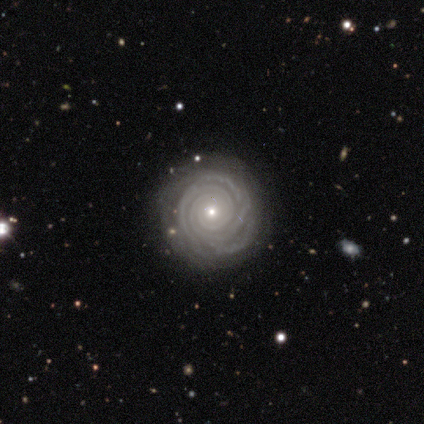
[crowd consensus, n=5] Smooth or featured? featured or disk (60%)
Edge-on disk? no (100%)
Bar? no (100%)
Spiral arms? yes (100%)
Spiral winding? tight (100%)
Spiral arm count? 3 (33%, tied with 4 and can't tell)
Bulge size? small (67%)
Merging? none (100%)